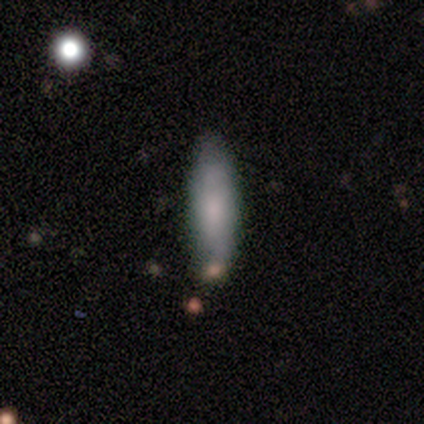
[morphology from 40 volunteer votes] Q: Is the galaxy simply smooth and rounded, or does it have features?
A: smooth — 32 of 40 (80%).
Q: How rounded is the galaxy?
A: cigar-shaped — 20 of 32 (62%).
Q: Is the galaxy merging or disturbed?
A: none — 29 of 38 (76%).